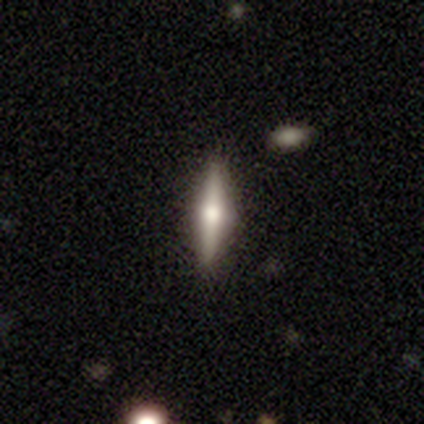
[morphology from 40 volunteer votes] Q: Smooth or featured?
A: featured or disk (55%); runner-up: smooth (40%)
Q: Edge-on disk?
A: yes (100%)
Q: Edge-on bulge?
A: rounded (100%)
Q: Merging?
A: none (87%); runner-up: minor disturbance (11%)